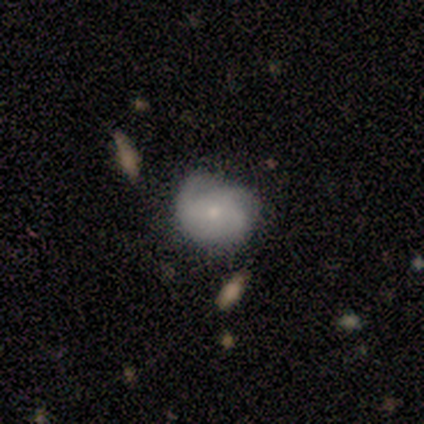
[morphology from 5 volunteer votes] This appears to be a featured or disk galaxy (60%) with a weak bar (50%, tied with no), 4 (50%, tied with can't tell) tight (100%) spiral arms (100%) and a moderate central bulge (50%, tied with small). Merging: none (80%).